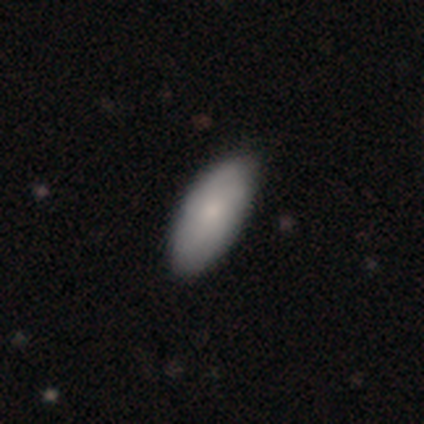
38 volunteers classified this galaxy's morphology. Q: Smooth or featured?
A: smooth (74%); runner-up: featured or disk (24%)
Q: How rounded?
A: in between (100%)
Q: Merging?
A: none (59%); runner-up: minor disturbance (3%)